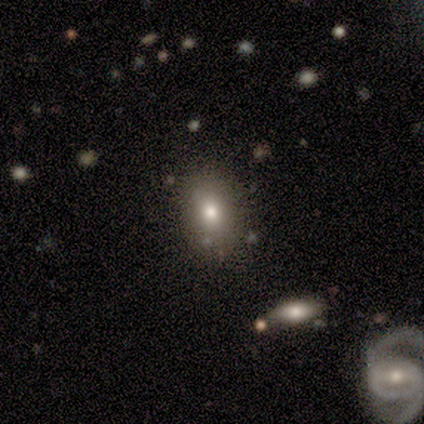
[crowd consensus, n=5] A smooth galaxy with no disk features (100%) that is in between round and cigar-shaped (60%). Merging: none (100%).